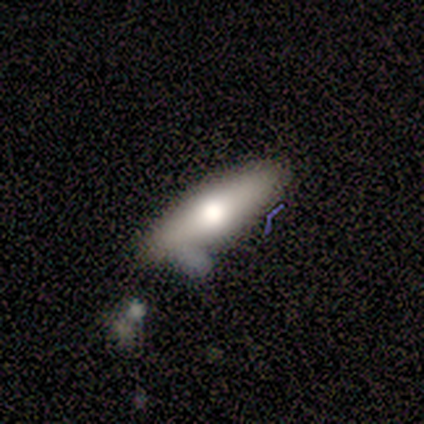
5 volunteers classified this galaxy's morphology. smooth_or_featured: smooth (p=0.60) [alt: featured or disk p=0.40]
how_rounded: in between (p=0.67) [alt: cigar-shaped p=0.33]
merging: none (p=0.40) [tied with: major disturbance p=0.40]